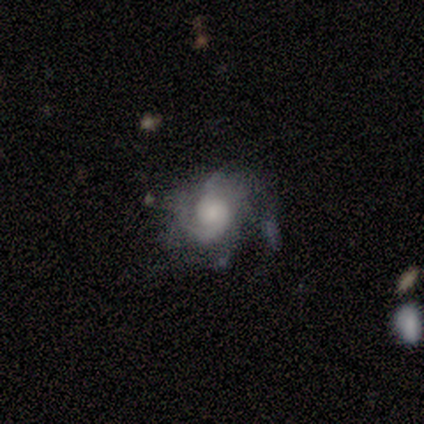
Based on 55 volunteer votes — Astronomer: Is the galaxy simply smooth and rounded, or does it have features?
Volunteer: featured or disk — 85%.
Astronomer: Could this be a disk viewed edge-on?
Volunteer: no — 96%.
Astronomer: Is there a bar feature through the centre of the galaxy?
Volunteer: no — 78%.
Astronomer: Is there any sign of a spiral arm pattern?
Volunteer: yes — 96%.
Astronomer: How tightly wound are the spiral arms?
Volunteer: tight — 40%, tied with medium at 40%.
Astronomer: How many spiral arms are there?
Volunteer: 2 — 33% (runner-up: 3, 26%).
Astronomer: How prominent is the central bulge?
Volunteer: large — 31% (runner-up: small, 29%).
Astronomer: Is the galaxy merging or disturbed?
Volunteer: none — 45% (runner-up: minor disturbance, 28%).